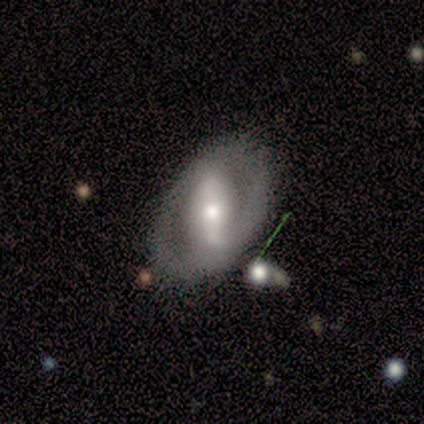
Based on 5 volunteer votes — smooth-or-featured: featured or disk: 80% | smooth: 20% | star or artifact: 0%
  disk-edge-on: no: 100% | yes: 0%
    bar: strong: 100% | weak: 0% | no: 0%
    has-spiral-arms: yes: 50% (tied) | no: 50% (tied)
      spiral-winding: tight: 50% (tied) | medium: 50% (tied) | loose: 0%
      spiral-arm-count: 1: 50% (tied) | 2: 50% (tied) | 3: 0% | 4: 0% | more than 4: 0% | can't tell: 0%
    bulge-size: moderate: 75% | small: 25% | dominant: 0% | large: 0% | none: 0%
  merging: none: 100% | minor disturbance: 0% | major disturbance: 0% | merger: 0%